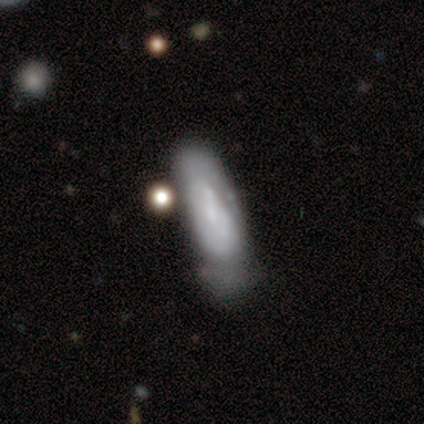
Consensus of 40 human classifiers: Smooth or featured: featured or disk — 60% (smooth — 35%)
Edge-on disk: no — 88% (yes — 12%)
Bar: no — 76% (weak — 14%)
Spiral arms: no — 62% (yes — 38%)
Bulge size: none — 52% (small — 24%)
Merging: minor disturbance — 58% (none — 24%)